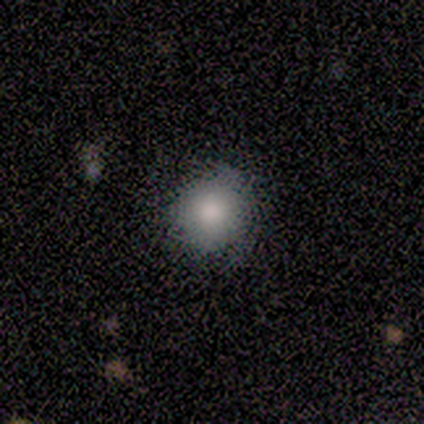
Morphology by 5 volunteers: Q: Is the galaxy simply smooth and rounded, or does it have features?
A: smooth — 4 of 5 (80%).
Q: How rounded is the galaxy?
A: round — 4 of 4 (100%).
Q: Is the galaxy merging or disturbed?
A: minor disturbance — 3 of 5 (60%).